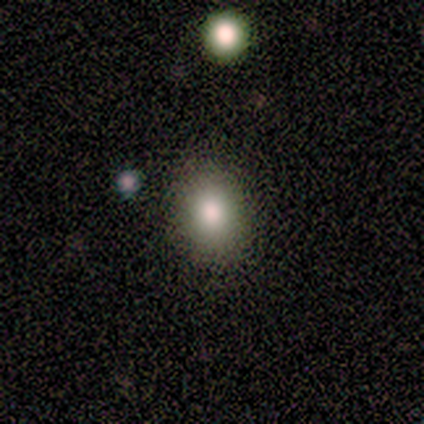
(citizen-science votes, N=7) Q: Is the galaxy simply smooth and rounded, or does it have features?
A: smooth — 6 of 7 (86%).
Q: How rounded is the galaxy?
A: round — 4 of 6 (67%).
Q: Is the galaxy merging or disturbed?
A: none — 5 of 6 (83%).